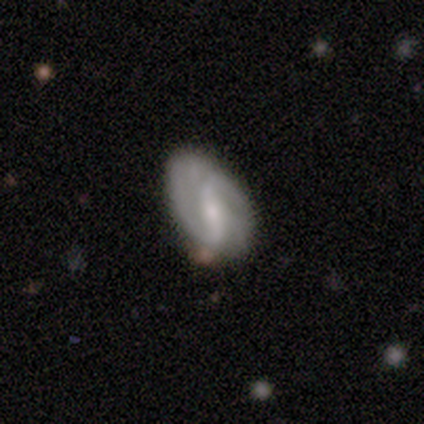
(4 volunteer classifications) smooth-or-featured: featured or disk: 75% | star or artifact: 25% | smooth: 0%
  disk-edge-on: no: 100% | yes: 0%
    bar: strong: 67% | weak: 33% | no: 0%
    has-spiral-arms: yes: 100% | no: 0%
      spiral-winding: tight: 33% (tied) | medium: 33% (tied) | loose: 33% (tied)
      spiral-arm-count: 2: 100% | 1: 0% | 3: 0% | 4: 0% | more than 4: 0% | can't tell: 0%
    bulge-size: small: 67% | moderate: 33% | dominant: 0% | large: 0% | none: 0%
  merging: minor disturbance: 67% | none: 33% | major disturbance: 0% | merger: 0%